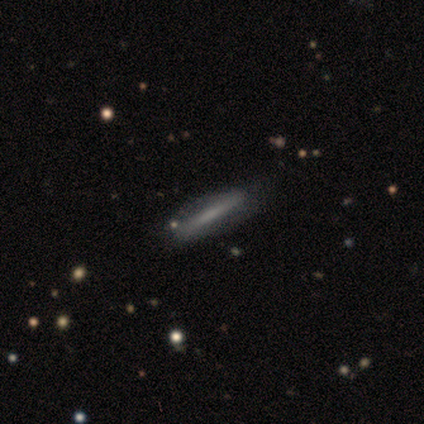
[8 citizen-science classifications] Smooth or featured? 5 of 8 (62%) said smooth. How rounded? 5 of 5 (100%) said cigar-shaped. Merging? 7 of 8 (88%) said none.